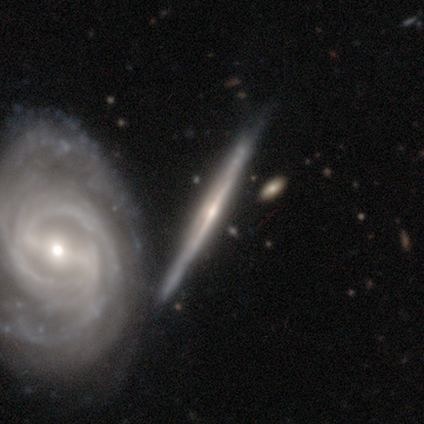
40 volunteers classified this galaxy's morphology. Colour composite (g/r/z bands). It shows a featured or disk galaxy (98%) viewed edge-on (85%) with a rounded central bulge (58%). Merging: none (33%).